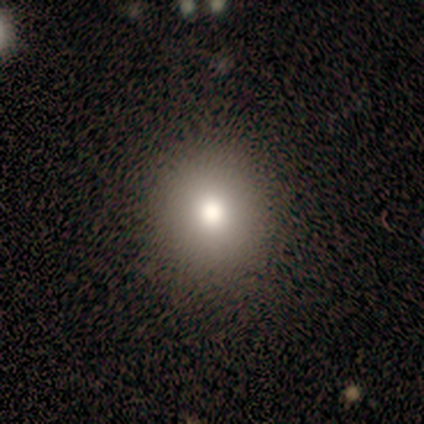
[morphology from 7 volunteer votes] A smooth galaxy with no disk features (86%) that is round (83%). Merging: none (83%).